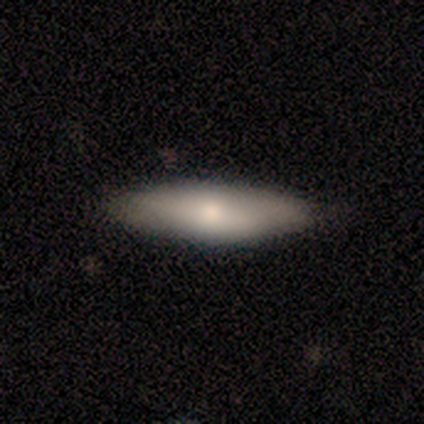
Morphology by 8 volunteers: This is likely a smooth galaxy (75%). How rounded: likely in between (67%). Merging: likely none (71%).